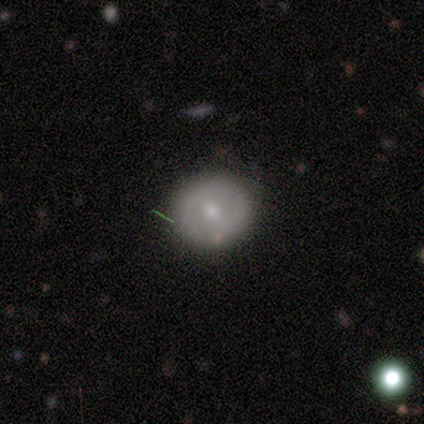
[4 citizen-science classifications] Smooth or featured: smooth — 50% (tied with featured or disk — 50%)
How rounded: round — 100%
Merging: none — 75% (major disturbance — 25%)